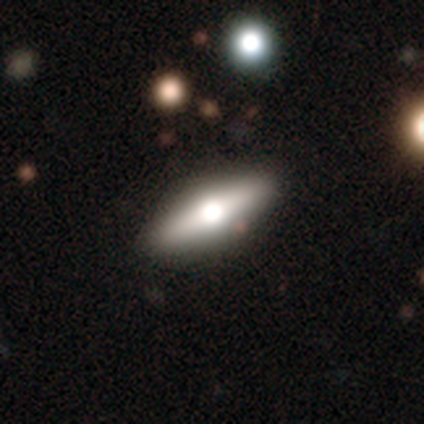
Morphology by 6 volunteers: Smooth or featured? featured or disk (67%)
Edge-on disk? yes (100%)
Edge-on bulge? rounded (75%)
Merging? none (67%)